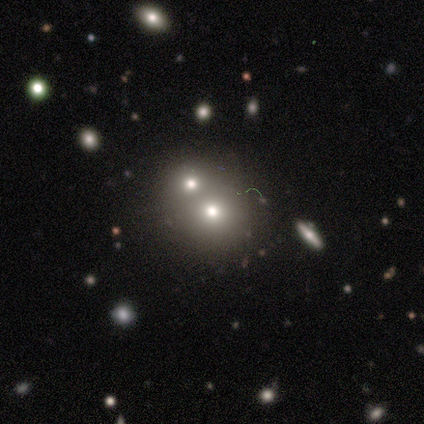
Smooth or featured? smooth (60%)
How rounded? round (67%)
Merging? none (80%)